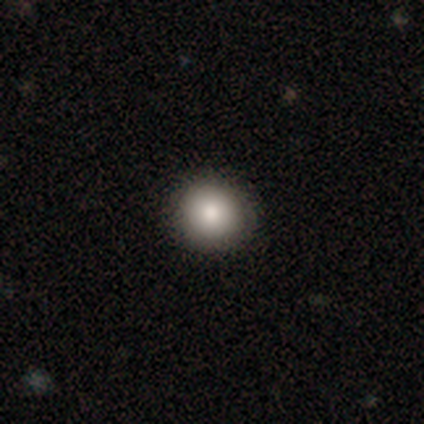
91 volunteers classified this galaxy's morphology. A smooth galaxy with no disk features (82%) that is round (97%). Merging: none (90%).